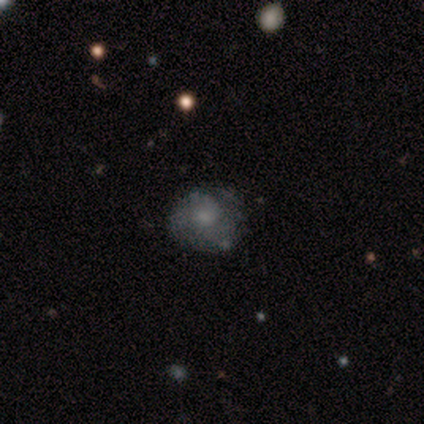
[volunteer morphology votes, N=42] Smooth or featured: smooth — 45% (featured or disk — 40%)
How rounded: round — 84% (in between — 16%)
Merging: none — 58% (minor disturbance — 39%)